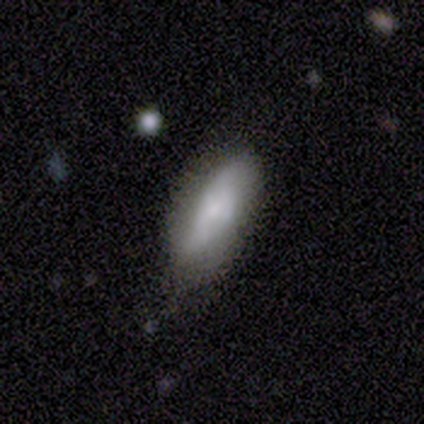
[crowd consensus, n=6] smooth 67%, featured or disk 33%, star or artifact 0%. Down the decision tree: how rounded — in between (75%); merging — none (100%).